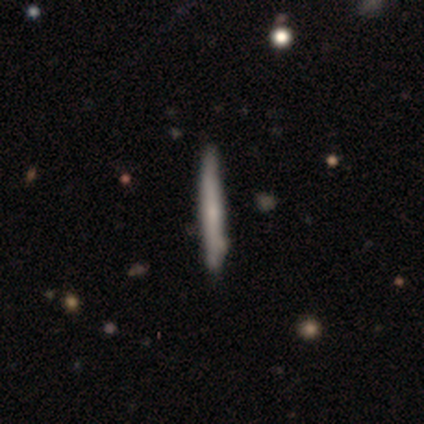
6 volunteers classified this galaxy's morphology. smooth 67%, featured or disk 33%, star or artifact 0%. Down the decision tree: how rounded — cigar-shaped (75%); merging — none (83%).